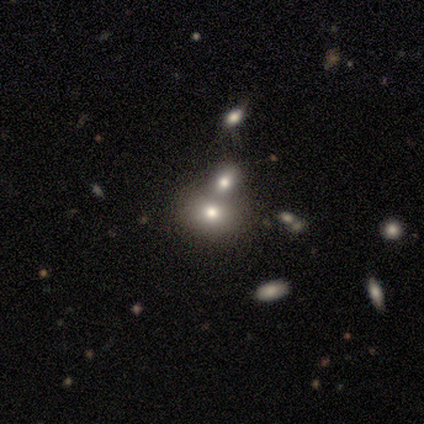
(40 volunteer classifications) Volunteers were most divided on "how rounded": in between: 52%, round: 48%, cigar-shaped: 0%. More confident: smooth or featured — smooth (68%); merging — merger (53%).